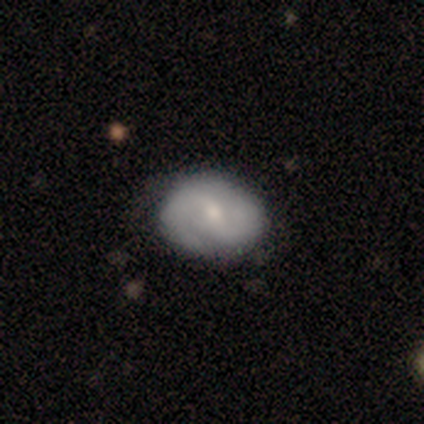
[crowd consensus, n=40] A featured or disk galaxy (75%) with a weak bar (52%), 2 (71%) tight (42%) spiral arms (83%) and a small central bulge (59%).

Vote fractions:
- Smooth or featured? featured or disk: 75% / smooth: 20% / star or artifact: 5%
- Edge-on disk? no: 97% / yes: 3%
- Bar? weak: 52% / no: 34% / strong: 14%
- Spiral arms? yes: 83% / no: 17%
- Spiral winding? tight: 42% / medium: 38% / loose: 21%
- Spiral arm count? 2: 71% / can't tell: 17% / 3: 8% / 1: 4% / 4: 0% / more than 4: 0%
- Bulge size? small: 59% / moderate: 34% / large: 3% / none: 3% / dominant: 0%
- Merging? none: 71% / minor disturbance: 21% / major disturbance: 8% / merger: 0%